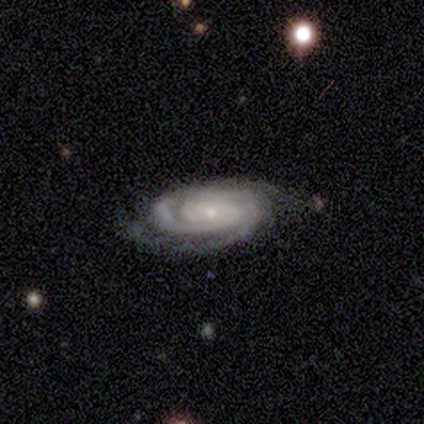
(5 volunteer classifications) Q: Smooth or featured?
A: featured or disk (100%)
Q: Edge-on disk?
A: no (100%)
Q: Bar?
A: no (60%); runner-up: strong (20%)
Q: Spiral arms?
A: yes (100%)
Q: Spiral winding?
A: tight (100%)
Q: Spiral arm count?
A: 2 (40%); tied with: 3 (40%)
Q: Bulge size?
A: small (80%); runner-up: moderate (20%)
Q: Merging?
A: none (100%)